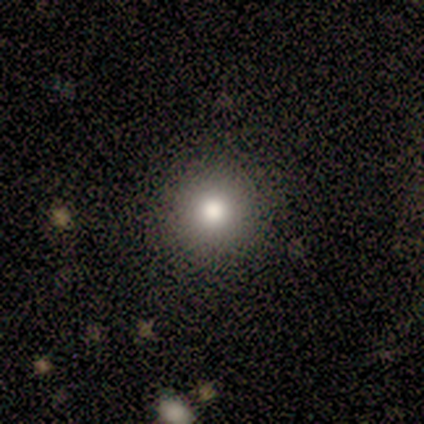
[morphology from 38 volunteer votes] Overall: smooth (79%). How rounded: round (100%). Merging: none (57%).